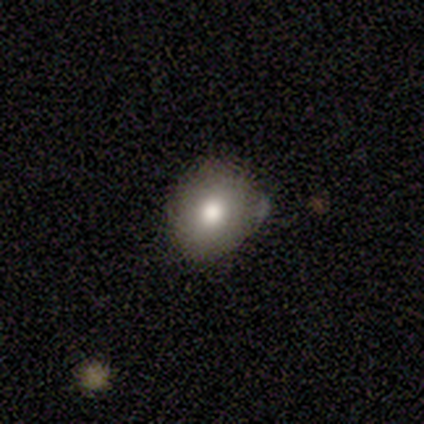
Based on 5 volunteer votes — Smooth or featured?
  - smooth: 100% *
  - featured or disk: 0%
  - star or artifact: 0%
How rounded?
  - round: 60% *
  - in between: 40%
  - cigar-shaped: 0%
Merging?
  - none: 100% *
  - minor disturbance: 0%
  - major disturbance: 0%
  - merger: 0%